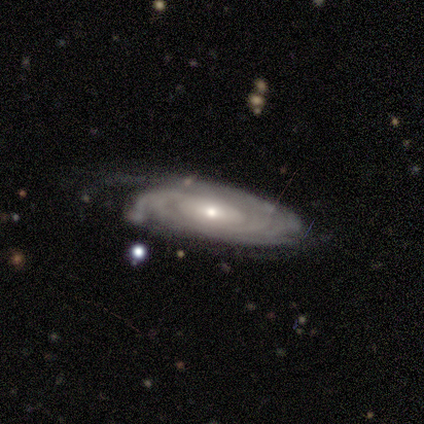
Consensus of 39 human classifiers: Smooth or featured? featured or disk (92%)
Edge-on disk? no (83%)
Bar? no (67%)
Spiral arms? yes (90%)
Spiral winding? tight (78%)
Spiral arm count? can't tell (48%)
Bulge size? small (63%)
Merging? none (46%)